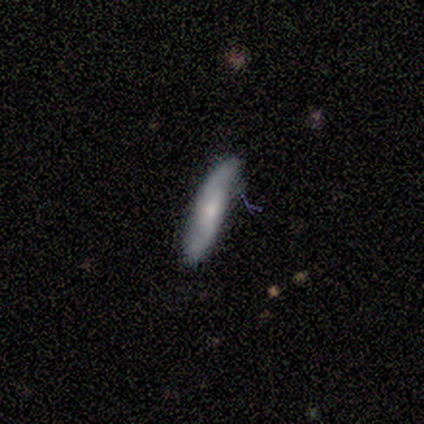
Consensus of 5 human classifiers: Overall: featured or disk (60%; smooth 40%). Edge-on disk: yes (67%; no 33%). Edge-on bulge: none (100%). Merging: none (100%).